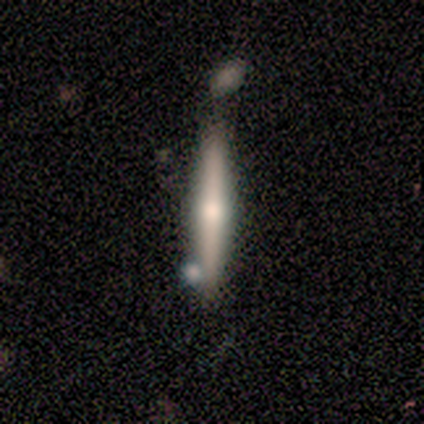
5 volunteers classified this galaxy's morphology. A featured or disk galaxy (80%) viewed edge-on (75%) with a rounded central bulge (100%).

Vote fractions:
- Smooth or featured? featured or disk: 80% / smooth: 20% / star or artifact: 0%
- Edge-on disk? yes: 75% / no: 25%
- Edge-on bulge? rounded: 100% / boxy: 0% / none: 0%
- Merging? none: 60% / minor disturbance: 20% / major disturbance: 20% / merger: 0%